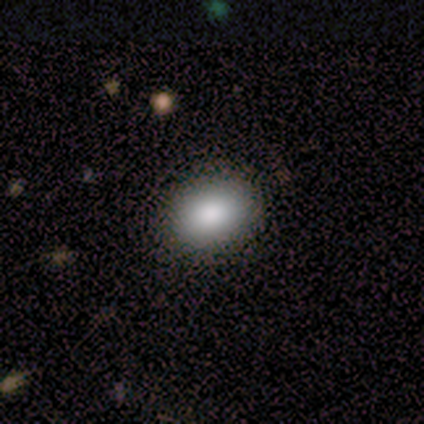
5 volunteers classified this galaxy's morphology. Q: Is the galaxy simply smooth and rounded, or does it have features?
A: smooth — 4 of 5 (80%).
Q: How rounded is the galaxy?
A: in between — 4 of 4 (100%).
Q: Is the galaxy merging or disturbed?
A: none — 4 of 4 (100%).